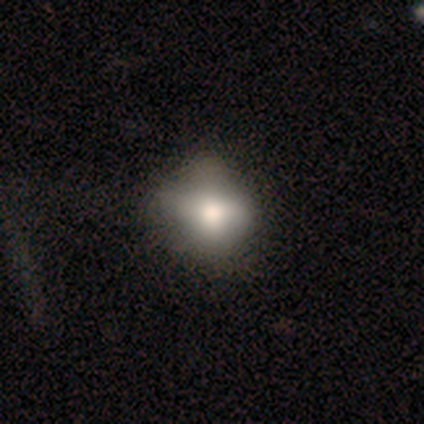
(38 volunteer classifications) Morphology: type=smooth (50%); roundness=round (63%); merging=none (57%).